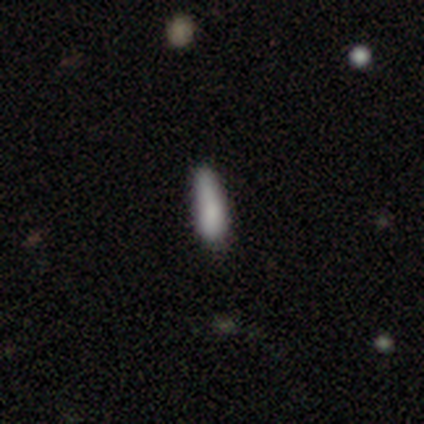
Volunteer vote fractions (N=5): Smooth or featured?
  - smooth: 60% *
  - featured or disk: 40%
  - star or artifact: 0%
How rounded?
  - in between: 100% *
  - round: 0%
  - cigar-shaped: 0%
Merging?
  - none: 40% *
  - minor disturbance: 20%
  - major disturbance: 20%
  - merger: 20%